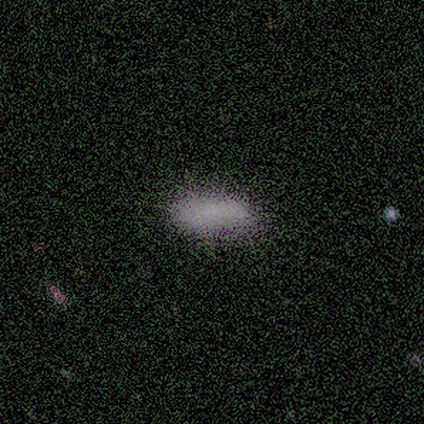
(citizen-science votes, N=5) Smooth or featured: smooth — 80% (star or artifact — 20%)
How rounded: in between — 75% (cigar-shaped — 25%)
Merging: none — 75% (minor disturbance — 25%)